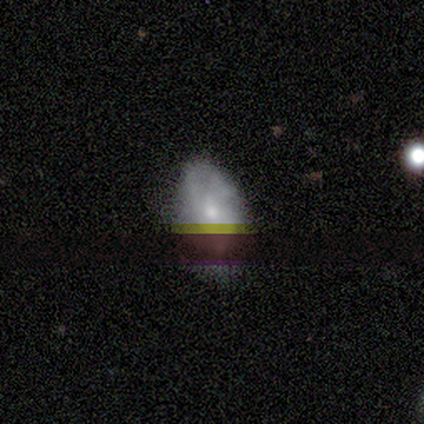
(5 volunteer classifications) smooth-or-featured: smooth: 40% (tied) | featured or disk: 40% (tied) | star or artifact: 20%
  how-rounded: in between: 100% | round: 0% | cigar-shaped: 0%
  merging: minor disturbance: 50% | none: 25% | merger: 25% | major disturbance: 0%